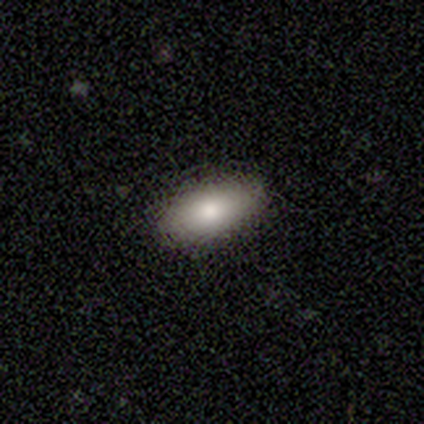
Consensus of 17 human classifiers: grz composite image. It shows a smooth galaxy with no disk features (76%) that is in between round and cigar-shaped (100%). Merging: none (88%).